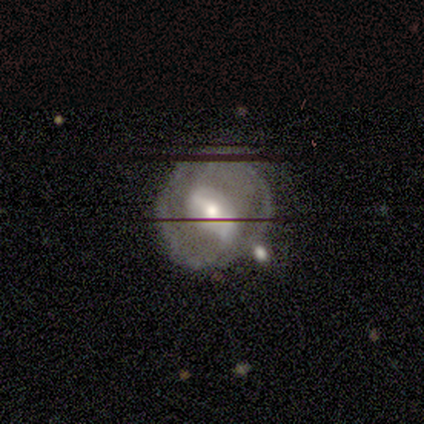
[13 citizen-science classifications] A featured or disk galaxy (77%) with a strong bar (50%), tight (40%, tied with medium) spiral arms (50%, tied with no) and a moderate central bulge (70%).

Vote fractions:
- Smooth or featured? featured or disk: 77% / smooth: 15% / star or artifact: 8%
- Edge-on disk? no: 100% / yes: 0%
- Bar? strong: 50% / weak: 40% / no: 10%
- Spiral arms? yes: 50% (tied) / no: 50% (tied)
- Spiral winding? tight: 40% (tied) / medium: 40% (tied) / loose: 20%
- Spiral arm count? can't tell: 60% / 2: 40% / 1: 0% / 3: 0% / 4: 0% / more than 4: 0%
- Bulge size? moderate: 70% / small: 30% / dominant: 0% / large: 0% / none: 0%
- Merging? none: 58% / minor disturbance: 25% / major disturbance: 8% / merger: 8%